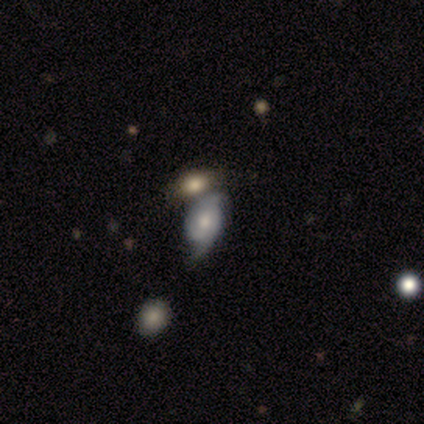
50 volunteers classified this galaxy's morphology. smooth-or-featured: featured or disk: 82% | smooth: 14% | star or artifact: 4%
  disk-edge-on: no: 98% | yes: 2%
    bar: no: 80% | weak: 18% | strong: 2%
    has-spiral-arms: yes: 92% | no: 8%
      spiral-winding: loose: 46% | tight: 32% | medium: 22%
      spiral-arm-count: 2: 97% | 3: 3% | 1: 0% | 4: 0% | more than 4: 0% | can't tell: 0%
    bulge-size: moderate: 48% | small: 42% | large: 8% | dominant: 2% | none: 0%
  merging: none: 33% (tied) | minor disturbance: 33% (tied) | merger: 27% | major disturbance: 6%